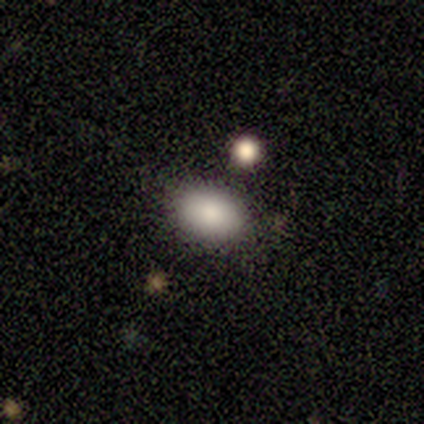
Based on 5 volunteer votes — Smooth or featured? smooth (80%)
How rounded? in between (75%)
Merging? none (100%)